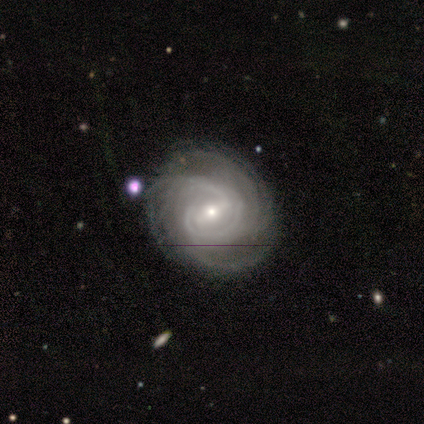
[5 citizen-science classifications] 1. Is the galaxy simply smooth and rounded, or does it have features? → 100% featured or disk, 0% smooth, 0% star or artifact.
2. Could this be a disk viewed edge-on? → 100% no, 0% yes.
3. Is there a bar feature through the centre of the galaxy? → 40% strong (tied), 40% weak (tied), 20% no.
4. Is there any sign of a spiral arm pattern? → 100% yes, 0% no.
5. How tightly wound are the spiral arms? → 80% tight, 20% medium, 0% loose.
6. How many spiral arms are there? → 40% 4, 20% 3, 20% more than 4, 20% can't tell, 0% 1, 0% 2.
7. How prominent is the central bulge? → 40% moderate (tied), 40% small (tied), 20% large, 0% dominant, 0% none.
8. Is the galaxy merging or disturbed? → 100% none, 0% minor disturbance, 0% major disturbance, 0% merger.